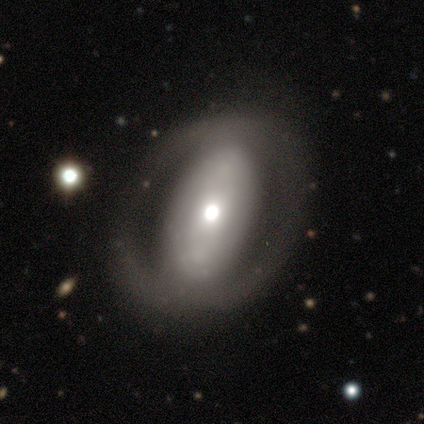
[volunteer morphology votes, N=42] Overall: featured or disk (69%). Edge-on disk: no (97%). Bar: no (64%; strong 25%). Spiral arms: no (71%). Bulge size: moderate (64%). Merging: none (68%).